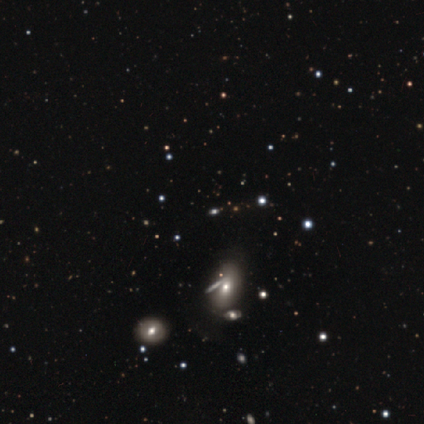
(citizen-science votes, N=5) smooth 40% (tied), star or artifact 40% (tied), featured or disk 20%. Down the decision tree: how rounded — in between (100%); merging — none (100%).